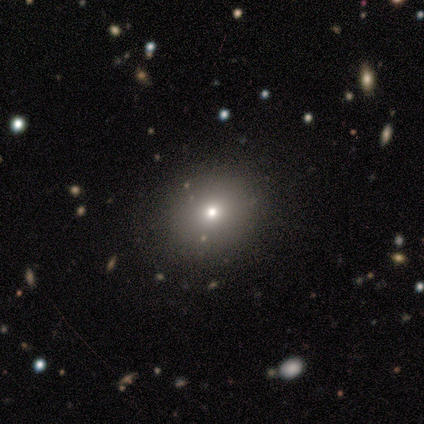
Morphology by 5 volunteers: smooth_or_featured: smooth (p=1.00)
how_rounded: round (p=1.00)
merging: none (p=1.00)